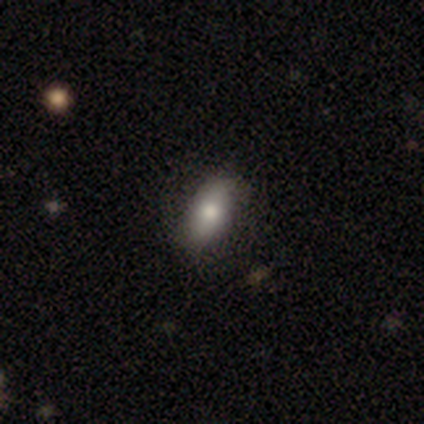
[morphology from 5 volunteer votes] Overall: smooth (80%). How rounded: in between (50%, tied with cigar-shaped). Merging: none (100%).